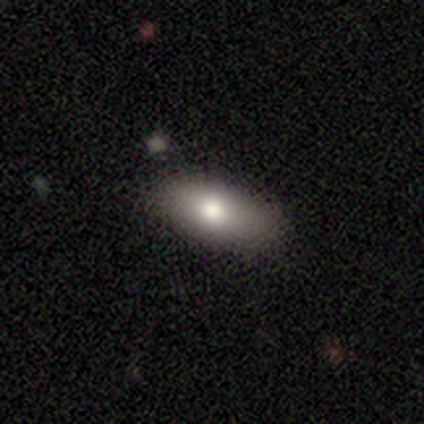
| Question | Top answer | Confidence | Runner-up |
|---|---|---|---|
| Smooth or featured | smooth | 60% | featured or disk (40%) |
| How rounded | in between | 100% | — |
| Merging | none | 100% | — |